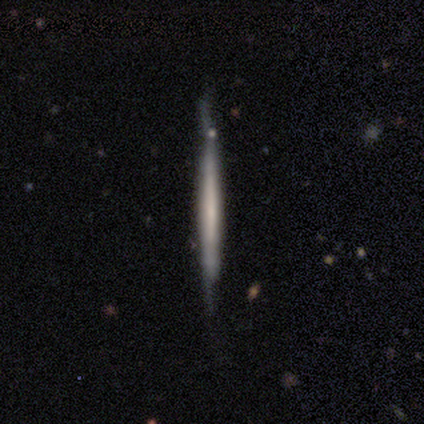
A featured or disk galaxy (80%) viewed edge-on (100%) with no central bulge (100%).

Vote fractions:
- Smooth or featured? featured or disk: 80% / smooth: 20% / star or artifact: 0%
- Edge-on disk? yes: 100% / no: 0%
- Edge-on bulge? none: 100% / boxy: 0% / rounded: 0%
- Merging? minor disturbance: 60% / none: 40% / major disturbance: 0% / merger: 0%